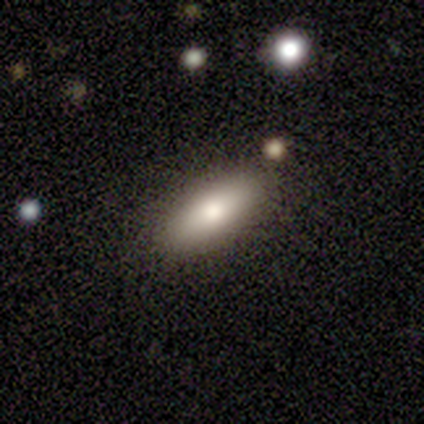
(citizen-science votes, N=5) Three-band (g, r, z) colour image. It shows a smooth galaxy with no disk features (60%) that is in between round and cigar-shaped (100%). Merging: none (80%).